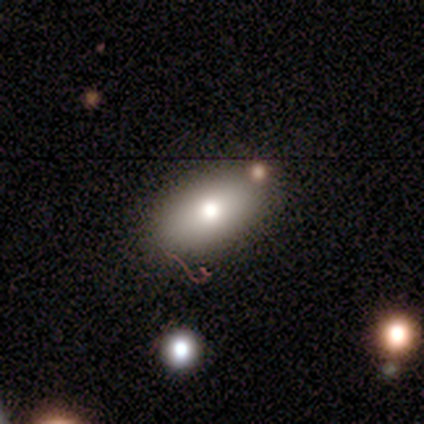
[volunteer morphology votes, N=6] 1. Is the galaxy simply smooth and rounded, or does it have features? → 67% smooth, 17% featured or disk, 17% star or artifact.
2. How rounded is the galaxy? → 100% in between, 0% round, 0% cigar-shaped.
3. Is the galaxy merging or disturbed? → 80% none, 20% merger, 0% minor disturbance, 0% major disturbance.